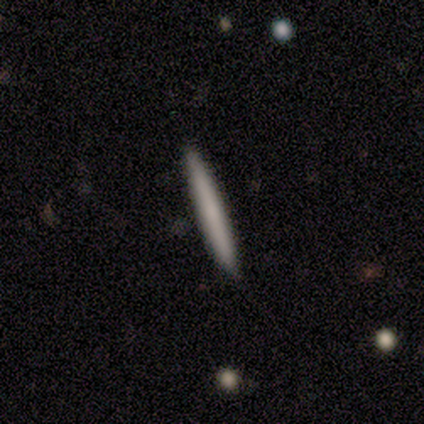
This appears to be a smooth galaxy with no disk features (100%) that is cigar-shaped (100%). Merging: none (75%).